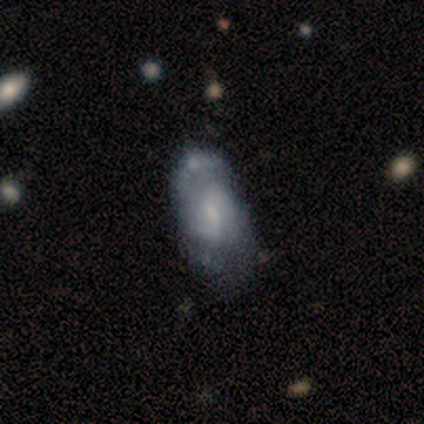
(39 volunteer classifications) Morphology: type=featured or disk (77%); edge-on=no (100%); bar=weak (73%); spiral arms=yes (77%); winding=medium (61%); arm count=2 (83%); bulge=small (57%); merging=none (37%).